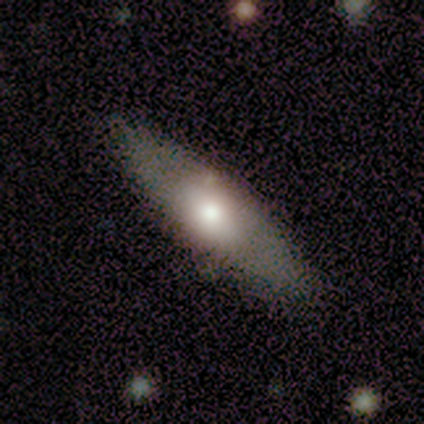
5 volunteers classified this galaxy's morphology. A smooth galaxy with no disk features (40%, tied with featured or disk) that is in between round and cigar-shaped (50%, tied with cigar-shaped). Merging: none (75%).